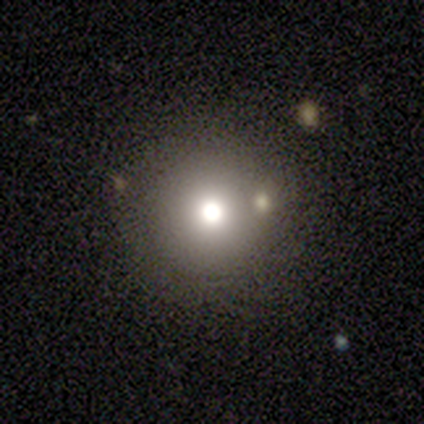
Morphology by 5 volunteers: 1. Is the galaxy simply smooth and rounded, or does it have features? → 60% smooth, 20% featured or disk, 20% star or artifact.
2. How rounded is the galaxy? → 100% round, 0% in between, 0% cigar-shaped.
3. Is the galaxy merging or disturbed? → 100% none, 0% minor disturbance, 0% major disturbance, 0% merger.